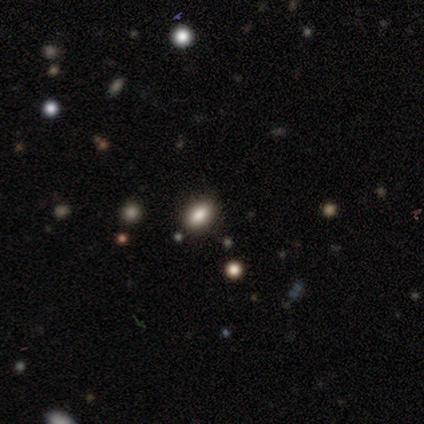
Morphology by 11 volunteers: A smooth galaxy with no disk features (73%) that is in between round and cigar-shaped (75%). Merging: none (80%).